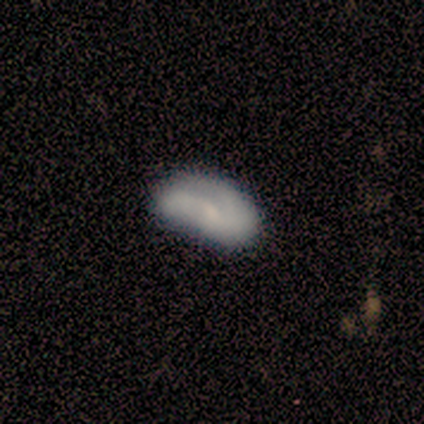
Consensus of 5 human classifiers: smooth-or-featured: smooth: 60% | featured or disk: 40% | star or artifact: 0%
  how-rounded: in between: 100% | round: 0% | cigar-shaped: 0%
  merging: minor disturbance: 40% (tied) | major disturbance: 40% (tied) | none: 20% | merger: 0%